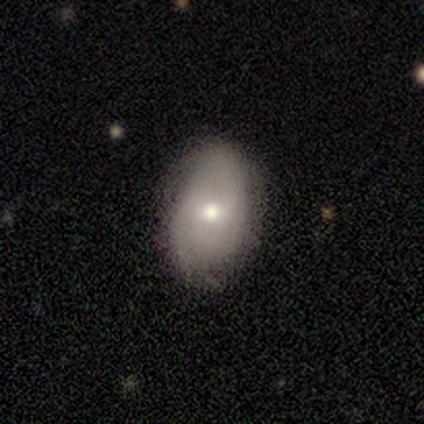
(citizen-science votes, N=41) smooth 68%, featured or disk 32%, star or artifact 0%. Down the decision tree: how rounded — in between (89%); merging — none (80%).